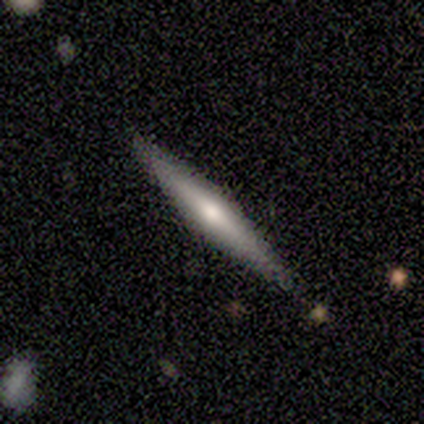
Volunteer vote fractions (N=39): smooth-or-featured: featured or disk: 74% | smooth: 23% | star or artifact: 3%
  disk-edge-on: yes: 100% | no: 0%
    edge-on-bulge: rounded: 72% | none: 17% | boxy: 10%
  merging: none: 92% | major disturbance: 5% | minor disturbance: 3% | merger: 0%